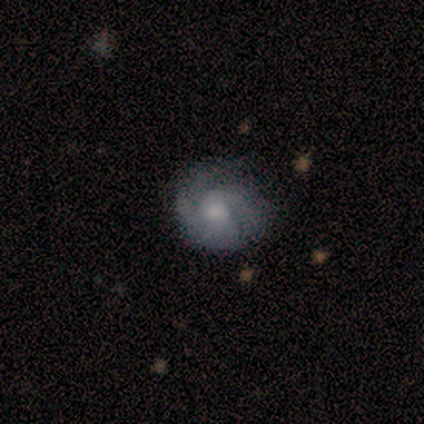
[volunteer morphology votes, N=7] Smooth or featured? featured or disk (57%)
Edge-on disk? no (100%)
Bar? no (75%)
Spiral arms? yes (100%)
Spiral winding? tight (50%, tied with medium)
Spiral arm count? 2 (50%)
Bulge size? moderate (50%, tied with small)
Merging? none (71%)